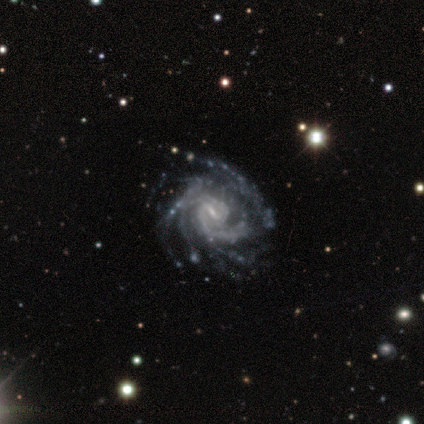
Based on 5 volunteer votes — smooth-or-featured: featured or disk: 100% | smooth: 0% | star or artifact: 0%
  disk-edge-on: no: 100% | yes: 0%
    bar: strong: 40% (tied) | no: 40% (tied) | weak: 20%
    has-spiral-arms: yes: 100% | no: 0%
      spiral-winding: tight: 100% | medium: 0% | loose: 0%
      spiral-arm-count: can't tell: 40% | 1: 20% | 4: 20% | more than 4: 20% | 2: 0% | 3: 0%
    bulge-size: small: 100% | dominant: 0% | large: 0% | moderate: 0% | none: 0%
  merging: none: 60% | minor disturbance: 40% | major disturbance: 0% | merger: 0%